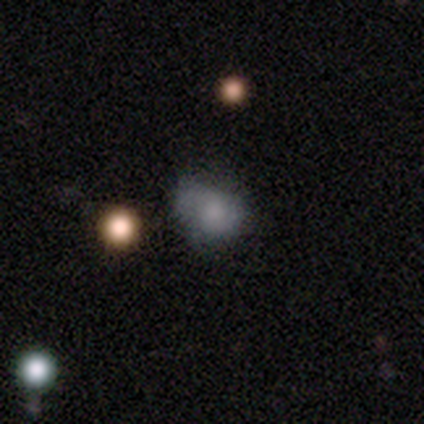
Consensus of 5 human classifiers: This is likely a smooth galaxy (60%). How rounded: likely in between (67%). Merging: marginally minor disturbance (40%, tied with major disturbance).